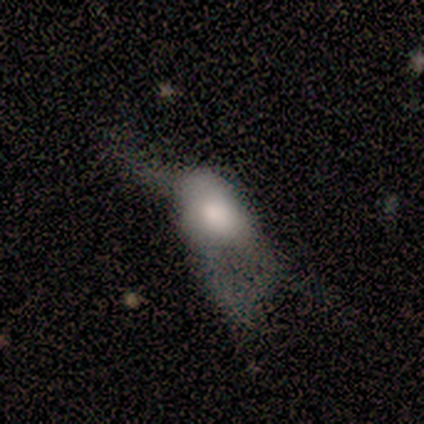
Smooth or featured? 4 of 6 (67%) said smooth. How rounded? 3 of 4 (75%) said in between. Merging? 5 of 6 (83%) said major disturbance.